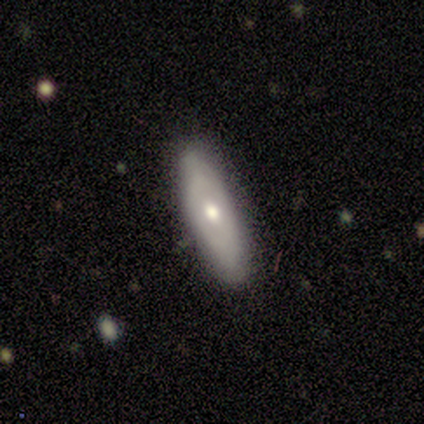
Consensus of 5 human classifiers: This appears to be a smooth galaxy with no disk features (60%) that is in between round and cigar-shaped (100%). Merging: none (100%).